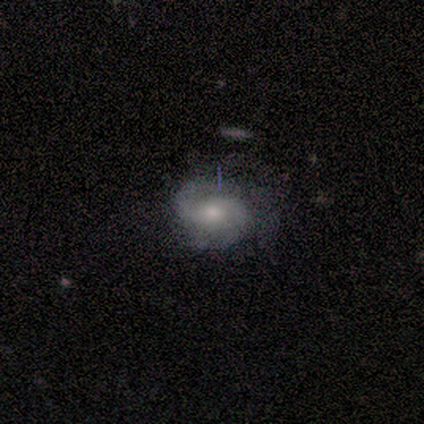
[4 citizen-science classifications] Smooth or featured? 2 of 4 (50%, tied with featured or disk) said smooth. How rounded? 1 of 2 (50%, tied with in between) said round. Merging? 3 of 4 (75%) said minor disturbance.